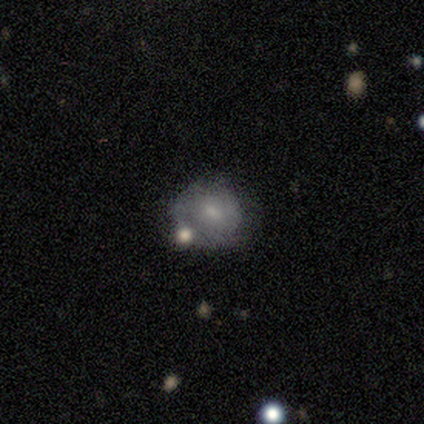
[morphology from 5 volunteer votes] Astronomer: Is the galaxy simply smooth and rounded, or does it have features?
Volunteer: smooth — 40%, tied with featured or disk at 40%.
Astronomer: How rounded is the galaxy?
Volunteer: round — 50%, tied with in between at 50%.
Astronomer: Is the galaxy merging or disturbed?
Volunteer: minor disturbance — 50%.